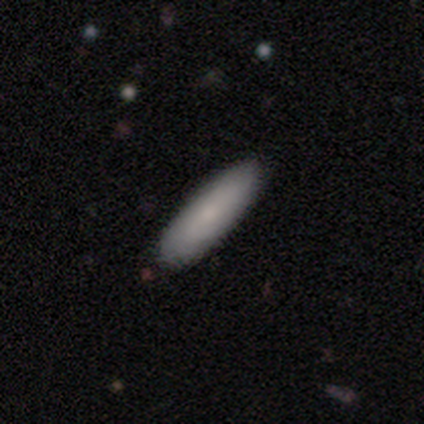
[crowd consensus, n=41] Smooth or featured: smooth — 76% (featured or disk — 22%)
How rounded: cigar-shaped — 52% (in between — 45%)
Merging: none — 55% (minor disturbance — 8%)